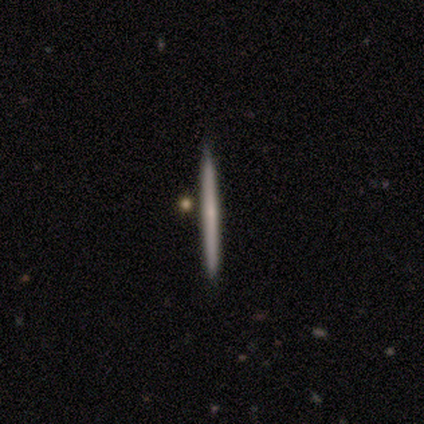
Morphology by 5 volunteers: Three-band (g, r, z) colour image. It shows a featured or disk galaxy (60%) viewed edge-on (100%) with no central bulge (67%). Merging: none (100%).